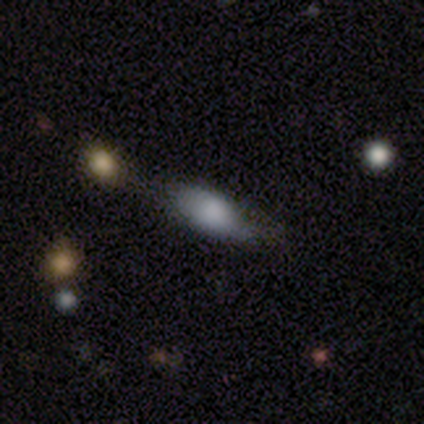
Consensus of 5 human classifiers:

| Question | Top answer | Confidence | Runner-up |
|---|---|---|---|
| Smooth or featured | smooth | 60% | featured or disk (20%) |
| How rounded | in between | 67% | cigar-shaped (33%) |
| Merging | major disturbance | 50% | none (25%) |